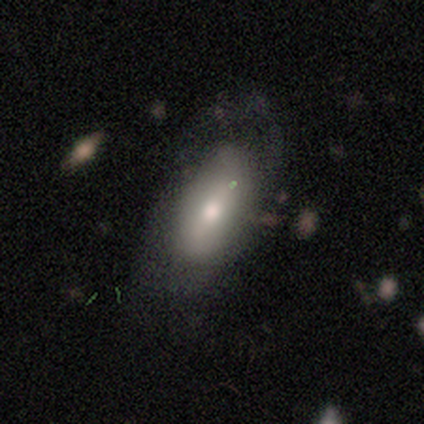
Morphology: type=smooth (80%); roundness=in between (100%); merging=none (40%, tied with major disturbance).